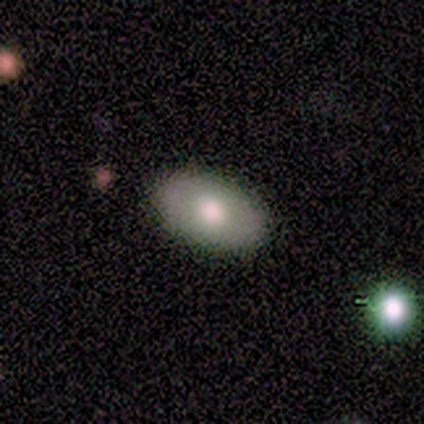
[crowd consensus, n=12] This appears to be a smooth galaxy with no disk features (75%) that is in between round and cigar-shaped (89%). Merging: none (100%).